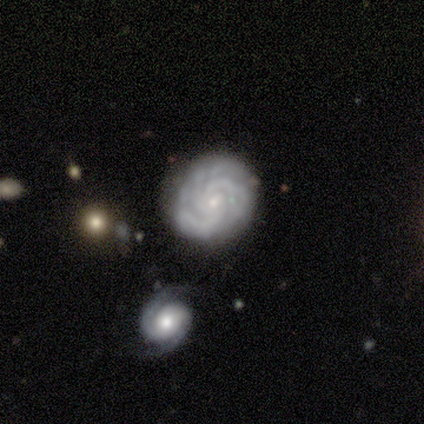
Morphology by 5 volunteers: Volunteers were most divided on "spiral arm count": 3: 60%, 4: 20%, can't tell: 20%, 1: 0%, 2: 0%, more than 4: 0%. More confident: smooth or featured — featured or disk (100%); edge-on disk — no (100%); bar — no (100%); spiral arms — yes (100%); bulge size — small (100%); merging — none (100%); spiral winding — tight (80%).